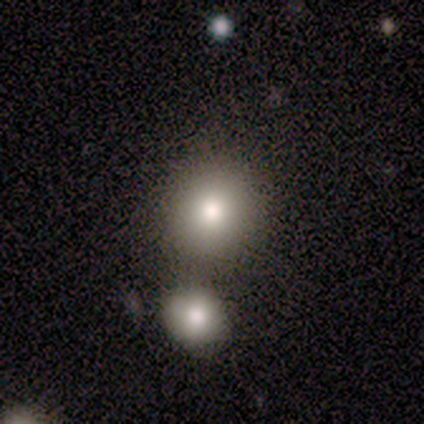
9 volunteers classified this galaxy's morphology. Q: Smooth or featured?
A: smooth (67%); runner-up: star or artifact (33%)
Q: How rounded?
A: round (83%); runner-up: in between (17%)
Q: Merging?
A: none (83%); runner-up: minor disturbance (17%)